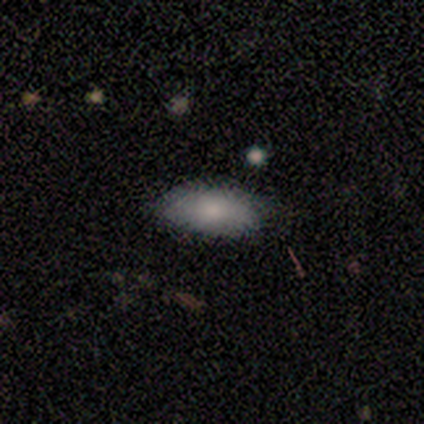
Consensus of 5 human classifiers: Smooth or featured?
  - smooth: 80% *
  - featured or disk: 20%
  - star or artifact: 0%
How rounded?
  - in between: 100% *
  - round: 0%
  - cigar-shaped: 0%
Merging?
  - none: 40% * (tied)
  - minor disturbance: 40% * (tied)
  - major disturbance: 20%
  - merger: 0%